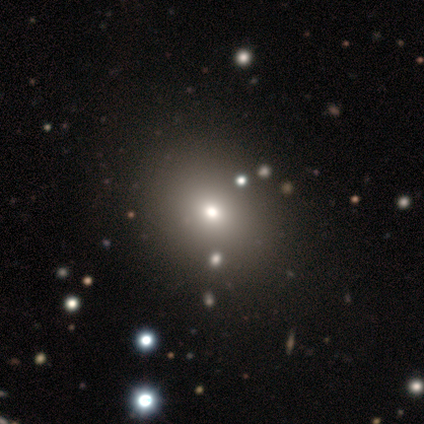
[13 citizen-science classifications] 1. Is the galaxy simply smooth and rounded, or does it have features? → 77% smooth, 23% star or artifact, 0% featured or disk.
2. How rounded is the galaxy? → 70% round, 30% in between, 0% cigar-shaped.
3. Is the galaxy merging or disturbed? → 80% none, 20% minor disturbance, 0% major disturbance, 0% merger.